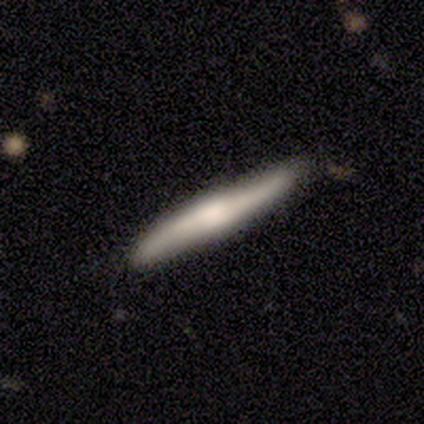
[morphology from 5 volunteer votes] Smooth or featured?
  - smooth: 60% *
  - featured or disk: 40%
  - star or artifact: 0%
How rounded?
  - cigar-shaped: 100% *
  - round: 0%
  - in between: 0%
Merging?
  - none: 80% *
  - minor disturbance: 20%
  - major disturbance: 0%
  - merger: 0%